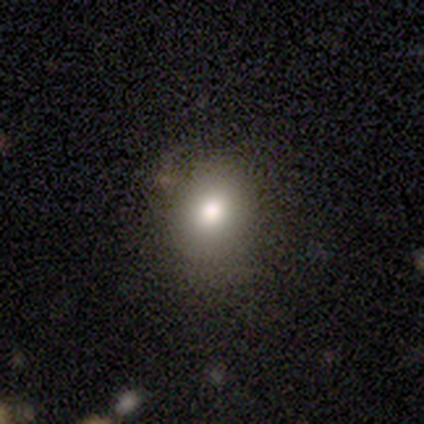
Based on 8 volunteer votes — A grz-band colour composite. It shows a smooth galaxy with no disk features (75%) that is in between round and cigar-shaped (67%). Merging: none (71%).